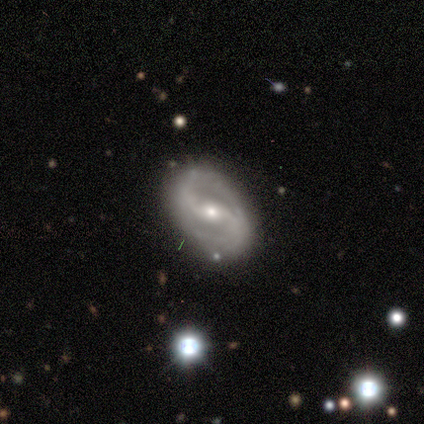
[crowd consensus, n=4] smooth-or-featured: featured or disk: 75% | star or artifact: 25% | smooth: 0%
  disk-edge-on: no: 100% | yes: 0%
    bar: weak: 100% | strong: 0% | no: 0%
    has-spiral-arms: yes: 67% | no: 33%
      spiral-winding: medium: 100% | tight: 0% | loose: 0%
      spiral-arm-count: 2: 100% | 1: 0% | 3: 0% | 4: 0% | more than 4: 0% | can't tell: 0%
    bulge-size: small: 67% | moderate: 33% | dominant: 0% | large: 0% | none: 0%
  merging: none: 100% | minor disturbance: 0% | major disturbance: 0% | merger: 0%